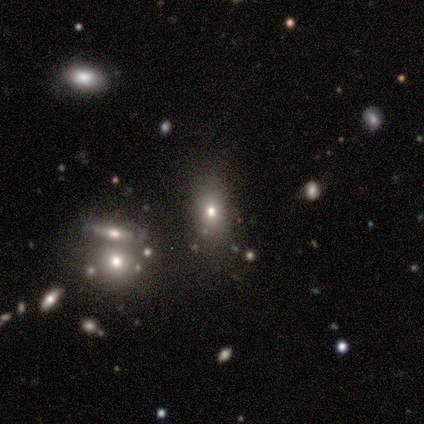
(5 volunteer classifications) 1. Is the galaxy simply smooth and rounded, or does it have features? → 80% smooth, 20% featured or disk, 0% star or artifact.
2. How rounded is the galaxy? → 50% round (tied), 50% in between (tied), 0% cigar-shaped.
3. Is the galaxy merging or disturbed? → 60% none, 20% minor disturbance, 20% merger, 0% major disturbance.